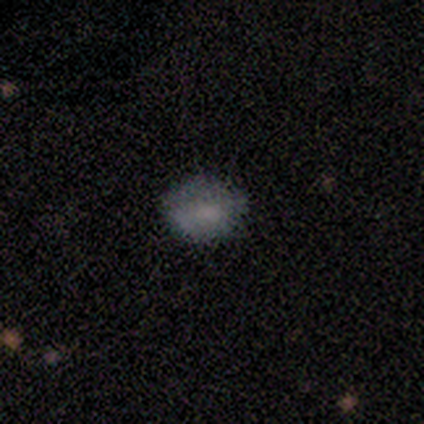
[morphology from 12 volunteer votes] Smooth or featured?
  - smooth: 83% *
  - featured or disk: 8%
  - star or artifact: 8%
How rounded?
  - in between: 70% *
  - round: 30%
  - cigar-shaped: 0%
Merging?
  - none: 91% *
  - minor disturbance: 9%
  - major disturbance: 0%
  - merger: 0%